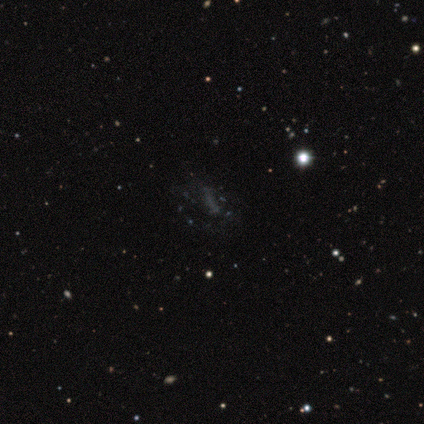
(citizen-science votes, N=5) smooth_or_featured: star or artifact (p=0.60) [alt: featured or disk p=0.40]